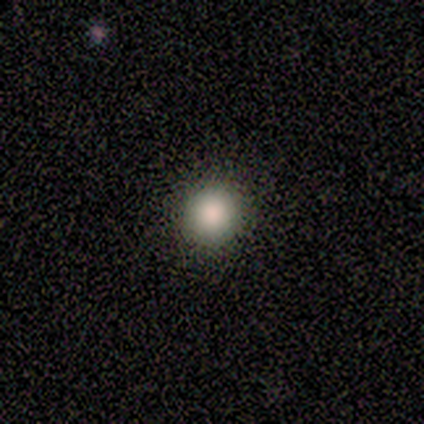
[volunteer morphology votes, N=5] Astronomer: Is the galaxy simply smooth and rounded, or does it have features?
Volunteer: smooth — 100%.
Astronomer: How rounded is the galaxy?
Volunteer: round — 100%.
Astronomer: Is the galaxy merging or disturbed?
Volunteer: none — 100%.